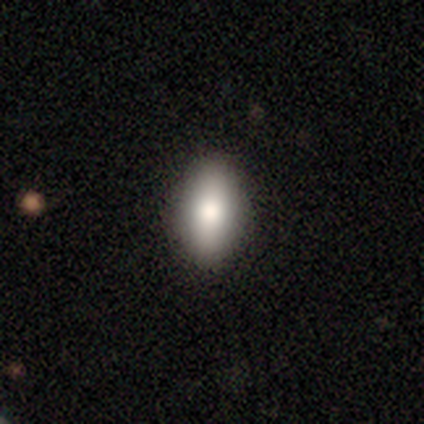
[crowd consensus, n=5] A smooth galaxy with no disk features (100%) that is in between round and cigar-shaped (60%). Merging: none (100%).